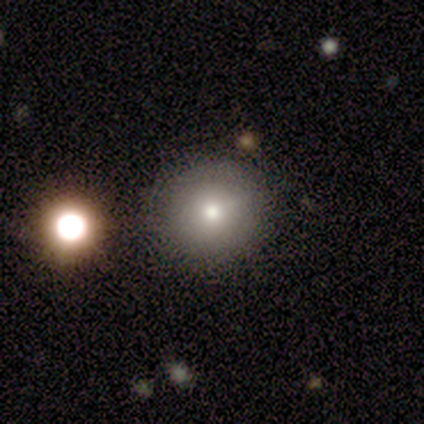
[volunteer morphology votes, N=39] A smooth galaxy with no disk features (77%) that is round (93%). Merging: none (80%).